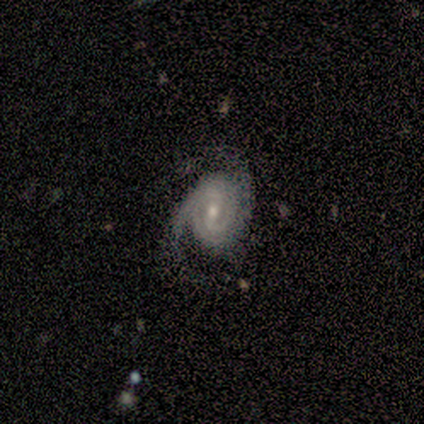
A featured or disk galaxy (80%) with a weak bar (75%), 2 (100%) tight (50%) spiral arms (100%) and a moderate central bulge (100%). Merging: none (80%).